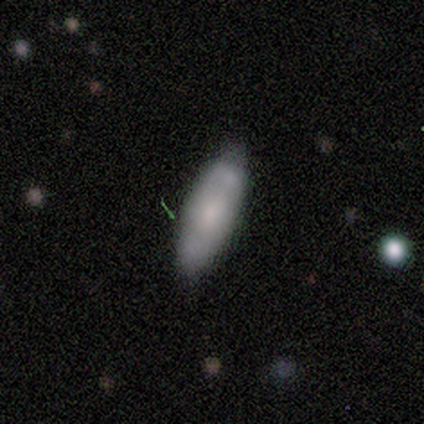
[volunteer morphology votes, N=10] A smooth galaxy with no disk features (60%) that is in between round and cigar-shaped (50%, tied with cigar-shaped). Merging: none (90%).